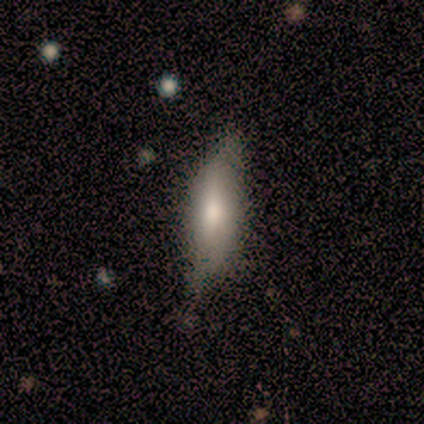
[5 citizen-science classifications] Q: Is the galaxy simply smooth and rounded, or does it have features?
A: smooth — 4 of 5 (80%).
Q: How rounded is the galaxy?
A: in between — 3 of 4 (75%).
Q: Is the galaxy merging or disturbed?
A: none — 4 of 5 (80%).